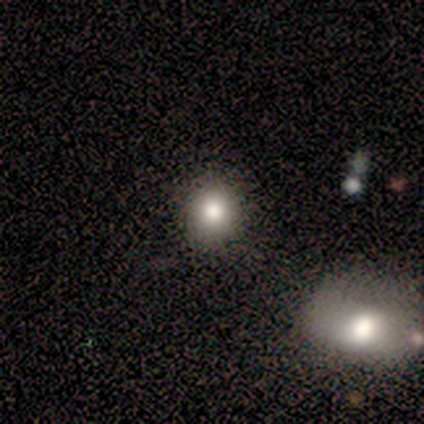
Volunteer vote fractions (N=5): smooth-or-featured: smooth: 100% | featured or disk: 0% | star or artifact: 0%
  how-rounded: round: 80% | in between: 20% | cigar-shaped: 0%
  merging: none: 100% | minor disturbance: 0% | major disturbance: 0% | merger: 0%